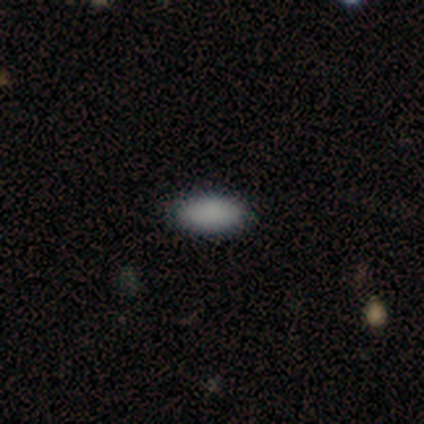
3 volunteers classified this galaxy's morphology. Q: Smooth or featured?
A: smooth (100%)
Q: How rounded?
A: in between (100%)
Q: Merging?
A: none (100%)